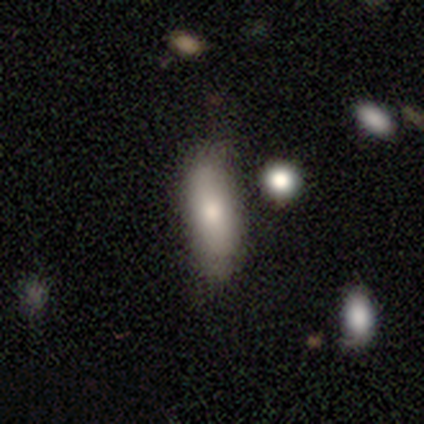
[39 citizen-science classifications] smooth-or-featured: smooth: 82% | featured or disk: 18% | star or artifact: 0%
  how-rounded: in between: 56% | cigar-shaped: 44% | round: 0%
  merging: none: 59% | minor disturbance: 10% | major disturbance: 3% | merger: 3%